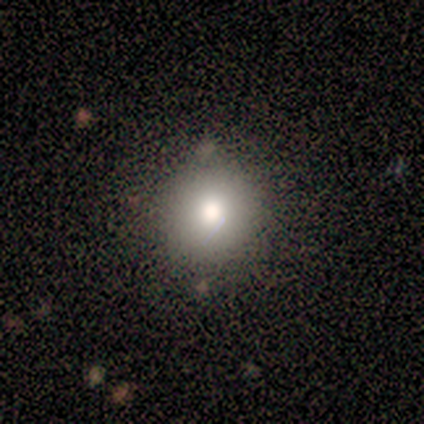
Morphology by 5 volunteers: smooth_or_featured: smooth (p=0.80) [alt: star or artifact p=0.20]
how_rounded: round (p=1.00)
merging: none (p=1.00)